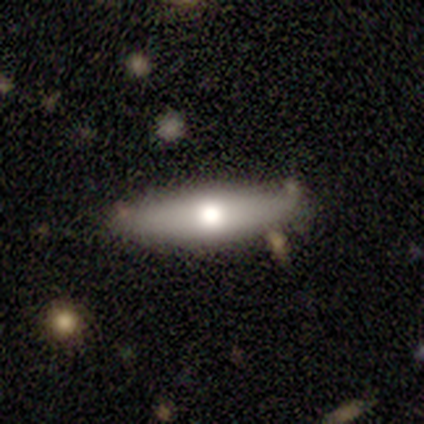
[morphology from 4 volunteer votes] type=featured or disk (75%); edge-on=no (67%); bar=no (100%); spiral arms=no (100%); bulge=large (50%, tied with moderate); merging=none (75%).